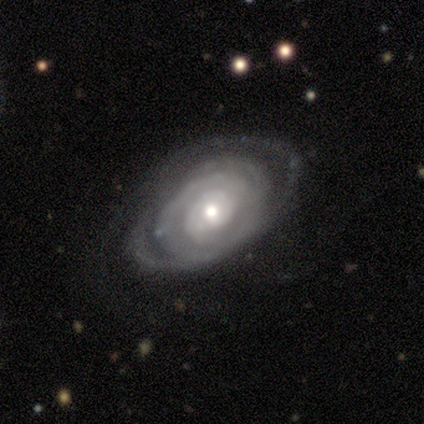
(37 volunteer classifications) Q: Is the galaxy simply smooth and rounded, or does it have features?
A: featured or disk — 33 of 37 (89%).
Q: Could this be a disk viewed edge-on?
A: no — 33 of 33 (100%).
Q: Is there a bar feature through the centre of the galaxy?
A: no — 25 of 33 (76%).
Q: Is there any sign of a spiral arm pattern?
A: yes — 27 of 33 (82%).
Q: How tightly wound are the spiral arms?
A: tight — 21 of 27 (78%).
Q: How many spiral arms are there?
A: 2 — 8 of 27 (30%).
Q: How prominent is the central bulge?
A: moderate — 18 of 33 (55%).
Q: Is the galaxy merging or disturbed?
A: none — 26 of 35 (74%).